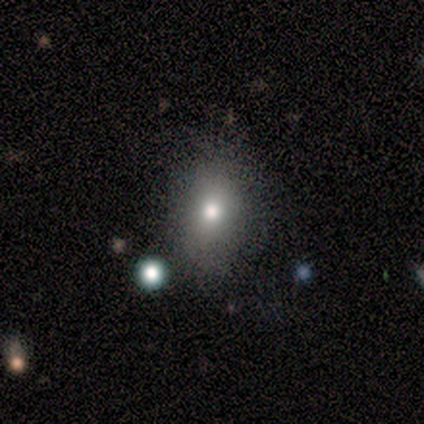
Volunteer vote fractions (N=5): This is marginally a smooth galaxy (40%, tied with featured or disk). How rounded: clearly round (100%). Merging: clearly none (100%).